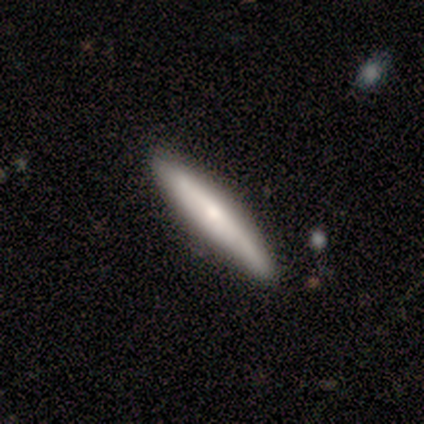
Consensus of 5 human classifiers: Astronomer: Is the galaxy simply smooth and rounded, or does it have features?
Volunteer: featured or disk — 60% (runner-up: smooth, 40%).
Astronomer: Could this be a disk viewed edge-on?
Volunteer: yes — 100%.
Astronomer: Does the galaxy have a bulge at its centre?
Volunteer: rounded — 100%.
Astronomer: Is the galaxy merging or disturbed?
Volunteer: none — 80%.